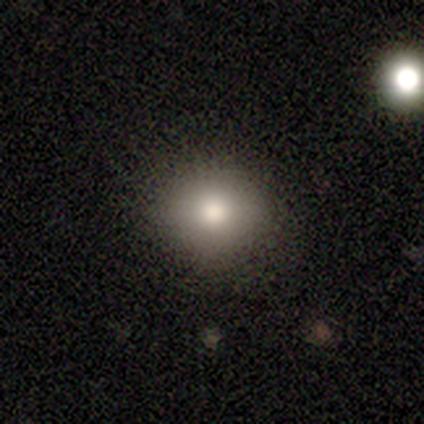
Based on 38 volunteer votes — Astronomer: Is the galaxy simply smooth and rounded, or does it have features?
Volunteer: smooth — 74%.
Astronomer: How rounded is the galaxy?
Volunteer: round — 75%.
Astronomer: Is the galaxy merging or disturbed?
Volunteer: none — 94%.